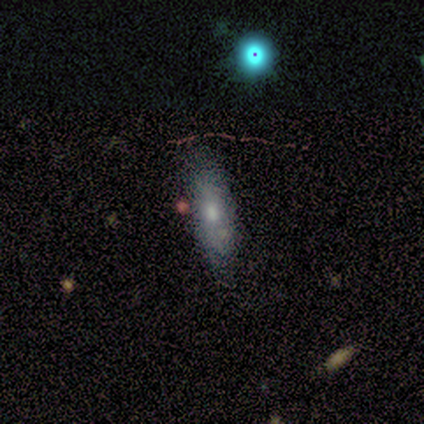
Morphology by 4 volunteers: A smooth galaxy with no disk features (75%) that is in between round and cigar-shaped (100%).

Vote fractions:
- Smooth or featured? smooth: 75% / star or artifact: 25% / featured or disk: 0%
- How rounded? in between: 100% / round: 0% / cigar-shaped: 0%
- Merging? minor disturbance: 67% / none: 33% / major disturbance: 0% / merger: 0%